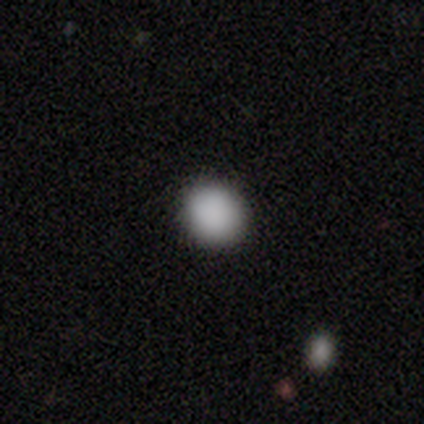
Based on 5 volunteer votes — A smooth galaxy with no disk features (80%) that is round (100%). Merging: none (100%).